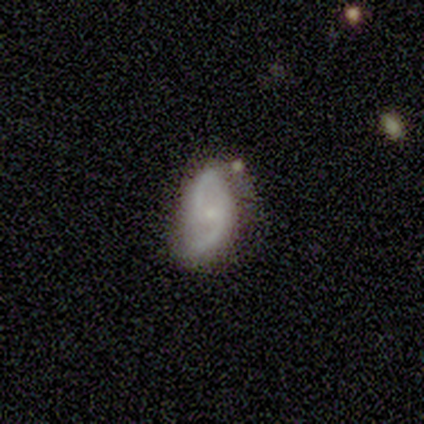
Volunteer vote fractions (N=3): Overall: featured or disk (67%; smooth 33%). Edge-on disk: no (100%). Bar: no (100%). Spiral arms: yes (100%). Spiral arm count: 2 (100%). Spiral winding: medium (100%). Bulge size: moderate (50%, tied with small). Merging: minor disturbance (67%; none 33%).